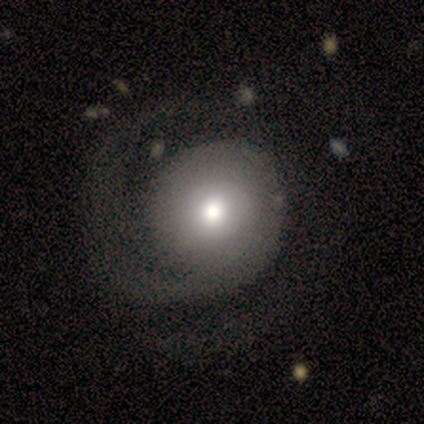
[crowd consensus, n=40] smooth_or_featured: featured or disk (p=0.68) [alt: smooth p=0.28]
disk_edge_on: no (p=0.93) [alt: yes p=0.07]
bar: no (p=0.88) [alt: weak p=0.12]
has_spiral_arms: yes (p=0.76) [alt: no p=0.24]
spiral_winding: medium (p=0.42) [alt: tight p=0.37]
spiral_arm_count: 1 (p=0.53) [alt: 2 p=0.47]
bulge_size: moderate (p=0.56) [alt: large p=0.24]
merging: none (p=0.26) [alt: major disturbance p=0.24]